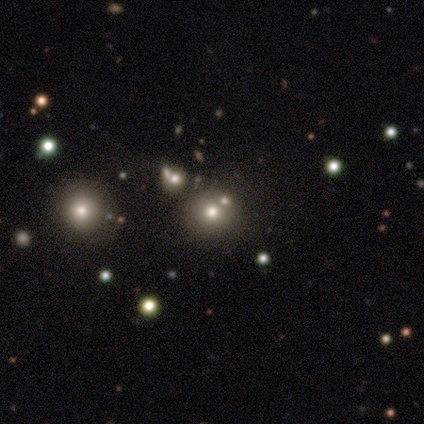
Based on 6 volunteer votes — A smooth galaxy with no disk features (67%) that is round (100%).

Vote fractions:
- Smooth or featured? smooth: 67% / star or artifact: 33% / featured or disk: 0%
- How rounded? round: 100% / in between: 0% / cigar-shaped: 0%
- Merging? none: 50% / major disturbance: 25% / merger: 25% / minor disturbance: 0%